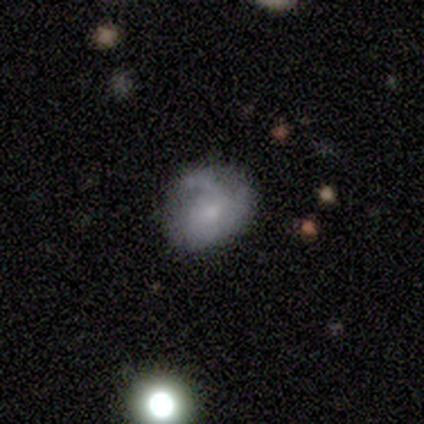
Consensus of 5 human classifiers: Volunteers were most divided on "smooth or featured" (2-way tie): smooth: 40%, featured or disk: 40%, star or artifact: 20%; "how rounded" (2-way tie): round: 50%, in between: 50%, cigar-shaped: 0%. More confident: merging — none (50%).